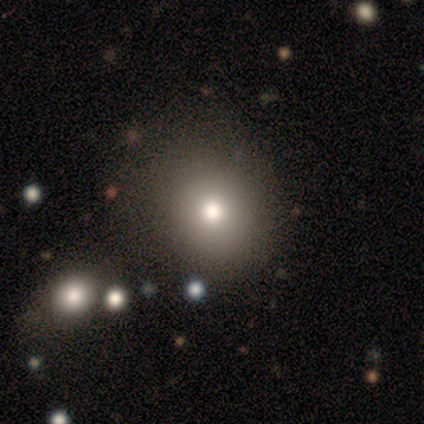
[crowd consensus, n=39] Overall: smooth (85%). How rounded: round (73%). Merging: none (60%).